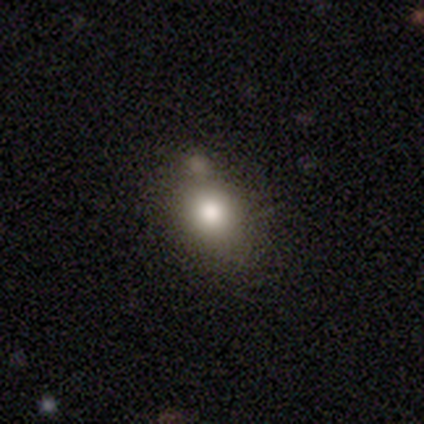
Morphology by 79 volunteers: A smooth galaxy with no disk features (87%) that is in between round and cigar-shaped (55%).

Vote fractions:
- Smooth or featured? smooth: 87% / featured or disk: 10% / star or artifact: 3%
- How rounded? in between: 55% / round: 43% / cigar-shaped: 1%
- Merging? none: 27% / merger: 21% / minor disturbance: 18% / major disturbance: 0%